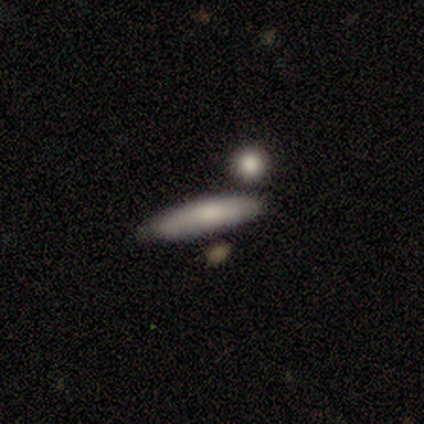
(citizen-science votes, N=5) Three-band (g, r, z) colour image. It shows a featured or disk galaxy (60%) viewed edge-on (100%) with a boxy central bulge (33%, tied with none and rounded). Merging: none (80%).